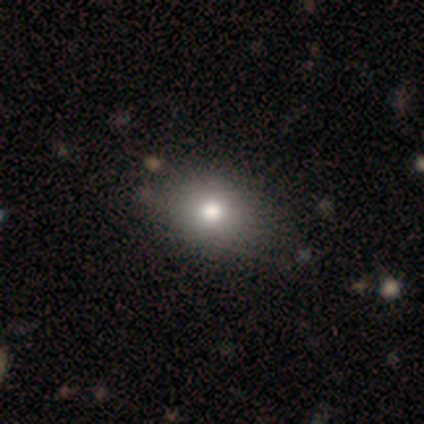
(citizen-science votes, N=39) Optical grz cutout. It shows a smooth galaxy with no disk features (79%) that is round (55%). Merging: none (71%).